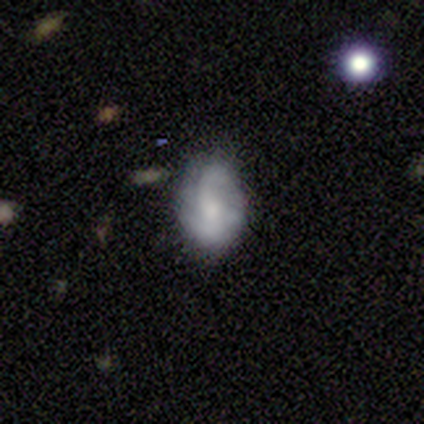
This appears to be a featured or disk galaxy (60%) with no bar (67%), 2 (50%, tied with 4) medium (50%, tied with loose) spiral arms (67%) and a large central bulge (33%, tied with moderate and small). Merging: none (40%, tied with minor disturbance).